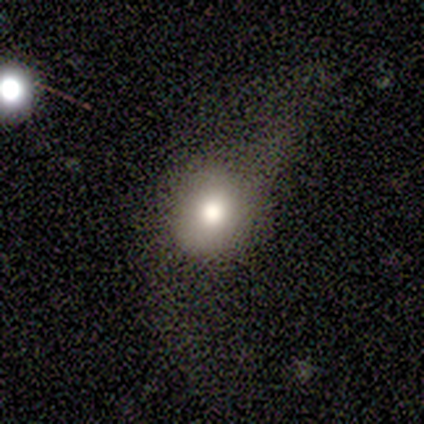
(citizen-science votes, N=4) This is likely a smooth galaxy (75%). How rounded: clearly round (100%). Merging: possibly none (50%, tied with minor disturbance).